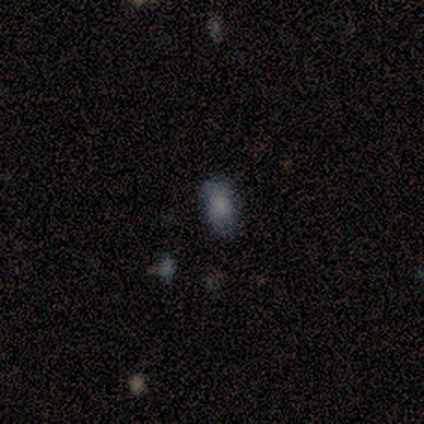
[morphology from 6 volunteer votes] This is clearly a smooth galaxy (83%). How rounded: clearly in between (100%). Merging: clearly none (100%).